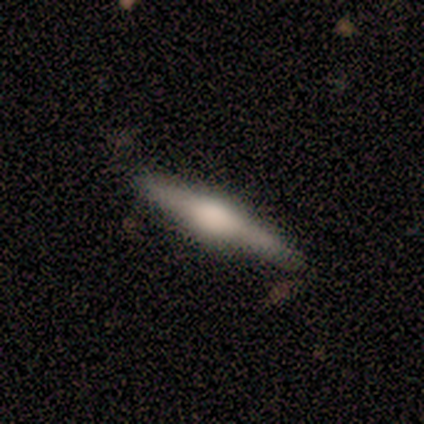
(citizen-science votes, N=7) Smooth or featured? 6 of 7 (86%) said featured or disk. Edge-on disk? 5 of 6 (83%) said yes. Edge-on bulge? 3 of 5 (60%) said rounded. Merging? 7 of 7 (100%) said none.